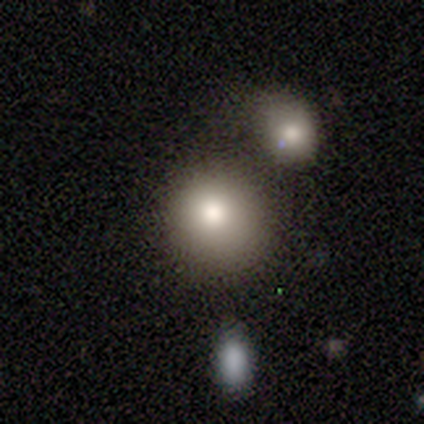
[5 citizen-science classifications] Smooth or featured? smooth (60%)
How rounded? round (100%)
Merging? none (75%)